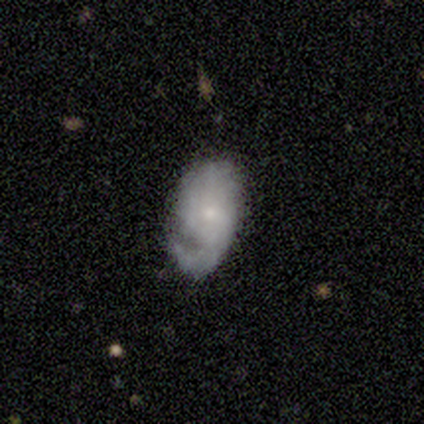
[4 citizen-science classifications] Smooth or featured? 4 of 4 (100%) said featured or disk. Edge-on disk? 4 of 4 (100%) said no. Bar? 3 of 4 (75%) said no. Spiral arms? 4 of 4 (100%) said yes. Spiral winding? 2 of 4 (50%, tied with loose) said medium. Spiral arm count? 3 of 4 (75%) said 1. Bulge size? 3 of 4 (75%) said small. Merging? 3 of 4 (75%) said none.